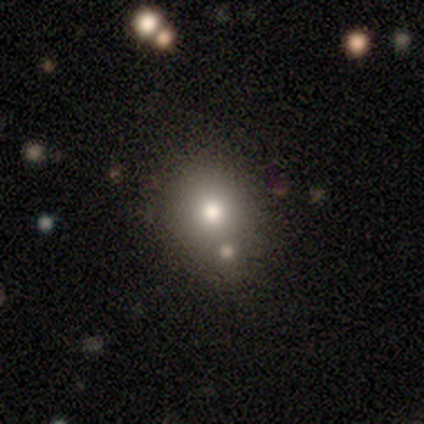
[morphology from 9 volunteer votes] Smooth or featured? 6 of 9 (67%) said smooth. How rounded? 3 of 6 (50%, tied with in between) said round. Merging? 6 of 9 (67%) said none.